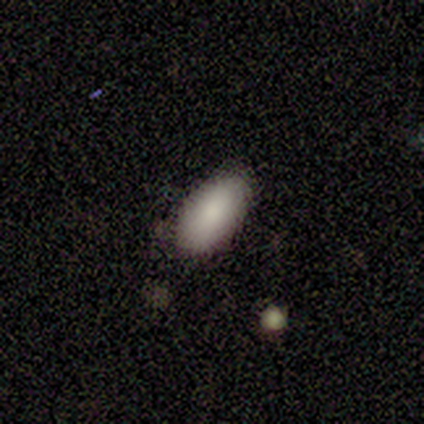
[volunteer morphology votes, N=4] Smooth or featured?
  - smooth: 75% *
  - featured or disk: 25%
  - star or artifact: 0%
How rounded?
  - in between: 100% *
  - round: 0%
  - cigar-shaped: 0%
Merging?
  - none: 100% *
  - minor disturbance: 0%
  - major disturbance: 0%
  - merger: 0%